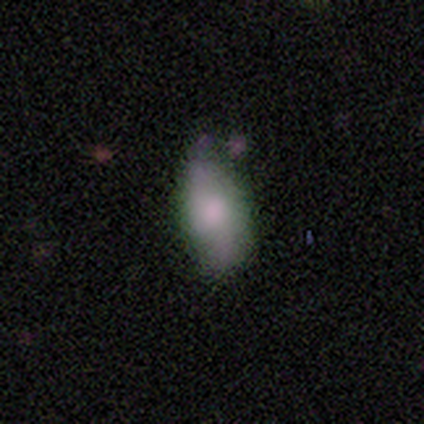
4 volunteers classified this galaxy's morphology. Q: Smooth or featured?
A: smooth (75%); runner-up: featured or disk (25%)
Q: How rounded?
A: in between (100%)
Q: Merging?
A: none (50%); tied with: minor disturbance (50%)